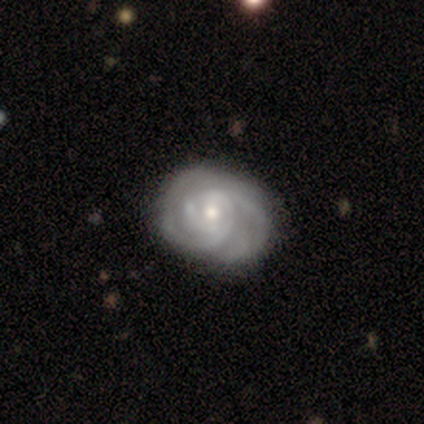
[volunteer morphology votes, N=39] Smooth or featured? 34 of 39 (87%) said featured or disk. Edge-on disk? 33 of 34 (97%) said no. Bar? 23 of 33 (70%) said no. Spiral arms? 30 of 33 (91%) said yes. Spiral winding? 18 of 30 (60%) said tight. Spiral arm count? 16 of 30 (53%) said can't tell. Bulge size? 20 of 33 (61%) said moderate. Merging? 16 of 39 (41%) said none.